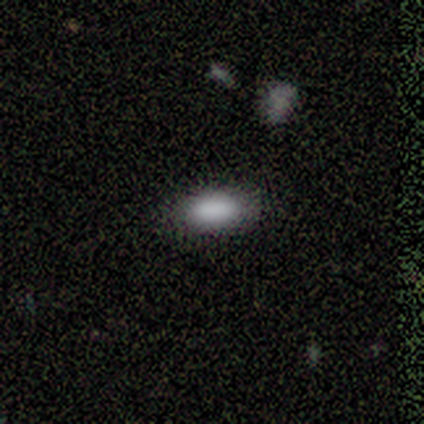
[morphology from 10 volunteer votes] This is clearly a smooth galaxy (90%). How rounded: clearly in between (89%). Merging: likely none (67%).